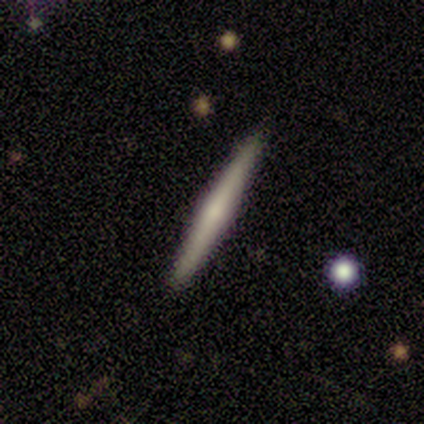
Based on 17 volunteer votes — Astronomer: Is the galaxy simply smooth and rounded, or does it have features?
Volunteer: featured or disk — 53% (runner-up: smooth, 35%).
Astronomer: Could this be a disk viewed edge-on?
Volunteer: yes — 100%.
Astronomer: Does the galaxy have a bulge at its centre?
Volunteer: rounded — 78%.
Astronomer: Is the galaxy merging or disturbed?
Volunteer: none — 100%.